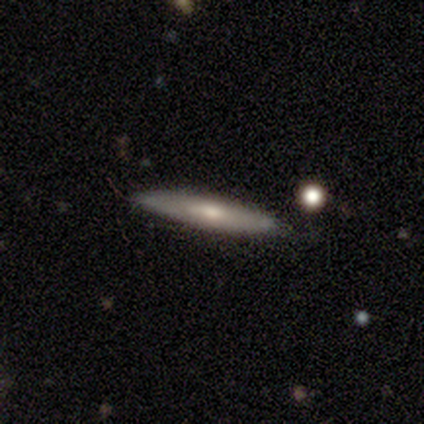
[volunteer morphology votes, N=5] This appears to be a featured or disk galaxy (60%) with no bar (100%), no spiral arms (100%) and a moderate central bulge (50%, tied with small). Merging: none (80%).